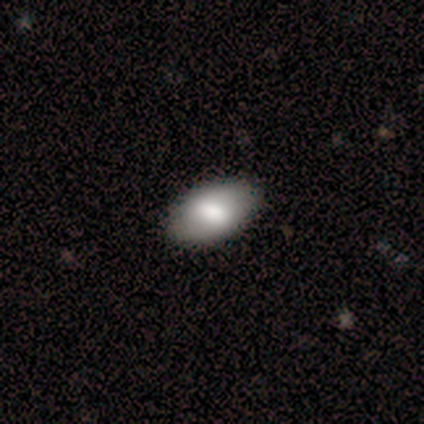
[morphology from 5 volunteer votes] Smooth or featured? 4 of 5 (80%) said smooth. How rounded? 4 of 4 (100%) said in between. Merging? 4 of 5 (80%) said none.